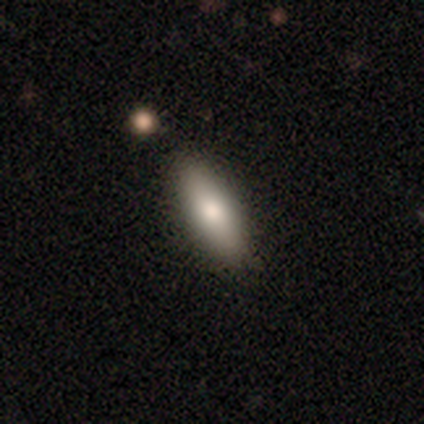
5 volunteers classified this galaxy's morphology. smooth-or-featured: smooth: 60% | featured or disk: 40% | star or artifact: 0%
  how-rounded: in between: 100% | round: 0% | cigar-shaped: 0%
  merging: none: 80% | minor disturbance: 20% | major disturbance: 0% | merger: 0%